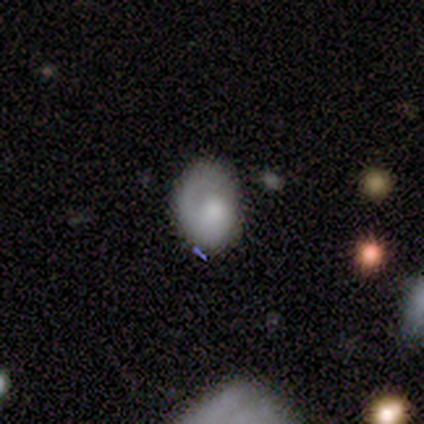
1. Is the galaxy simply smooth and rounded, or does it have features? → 60% smooth, 40% featured or disk, 0% star or artifact.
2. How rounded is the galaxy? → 67% in between, 33% round, 0% cigar-shaped.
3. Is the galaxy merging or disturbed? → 60% none, 40% minor disturbance, 0% major disturbance, 0% merger.